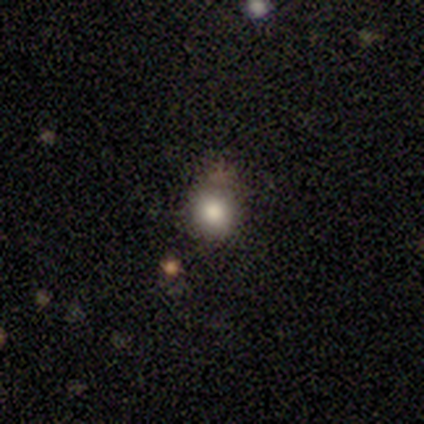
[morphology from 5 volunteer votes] Q: Smooth or featured?
A: smooth (100%)
Q: How rounded?
A: round (100%)
Q: Merging?
A: none (80%); runner-up: major disturbance (20%)